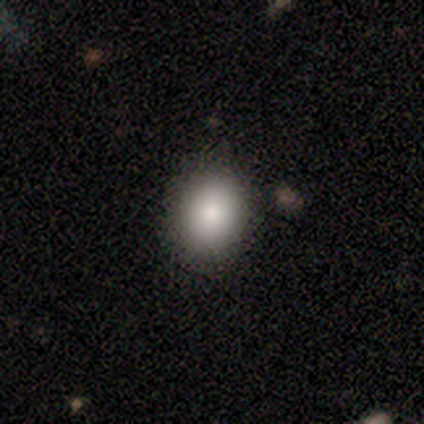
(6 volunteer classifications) Volunteers were most divided on "how rounded" (2-way tie): round: 50%, in between: 50%, cigar-shaped: 0%. More confident: merging — none (100%); smooth or featured — smooth (67%).